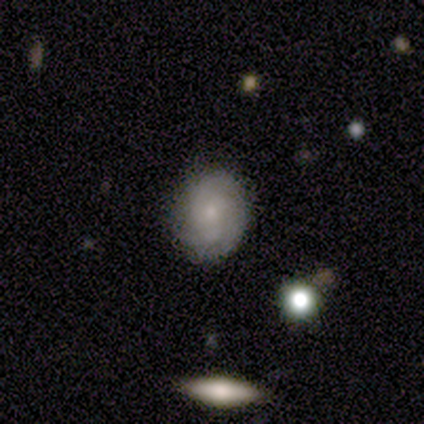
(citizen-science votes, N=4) Q: Smooth or featured?
A: smooth (75%); runner-up: featured or disk (25%)
Q: How rounded?
A: round (100%)
Q: Merging?
A: none (100%)